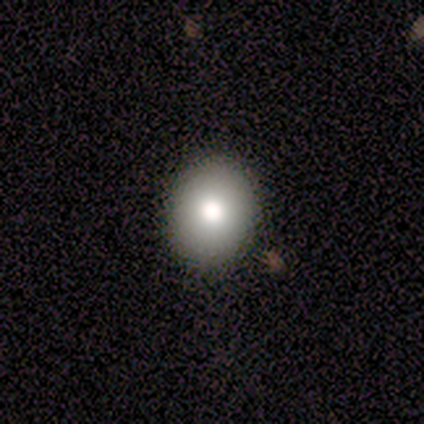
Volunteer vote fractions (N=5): Smooth or featured? 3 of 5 (60%) said smooth. How rounded? 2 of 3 (67%) said round. Merging? 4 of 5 (80%) said none.